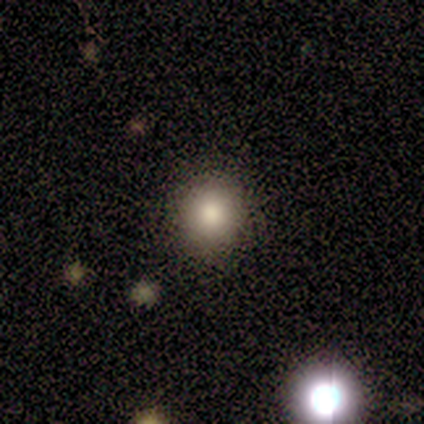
smooth 60%, star or artifact 40%, featured or disk 0%. Down the decision tree: how rounded — round (100%); merging — none (100%).